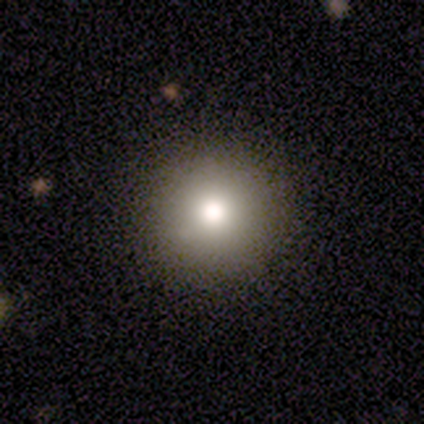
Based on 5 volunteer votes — smooth 40% (tied), featured or disk 40% (tied), star or artifact 20%. Down the decision tree: how rounded — round (100%); merging — none (100%).